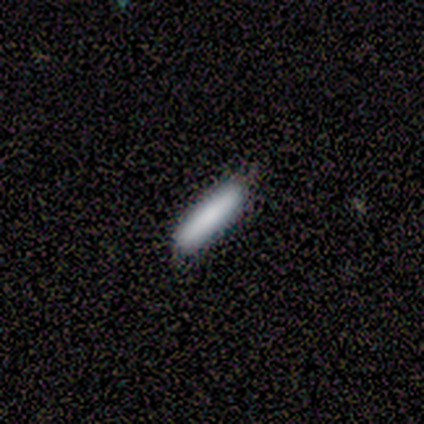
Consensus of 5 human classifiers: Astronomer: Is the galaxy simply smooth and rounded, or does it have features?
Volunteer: smooth — 100%.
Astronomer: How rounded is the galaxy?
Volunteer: cigar-shaped — 100%.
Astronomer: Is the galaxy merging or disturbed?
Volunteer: none — 60% (runner-up: minor disturbance, 40%).